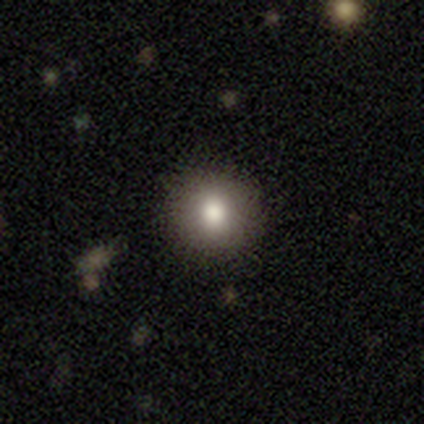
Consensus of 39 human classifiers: Overall: smooth (72%). How rounded: round (96%). Merging: none (82%).